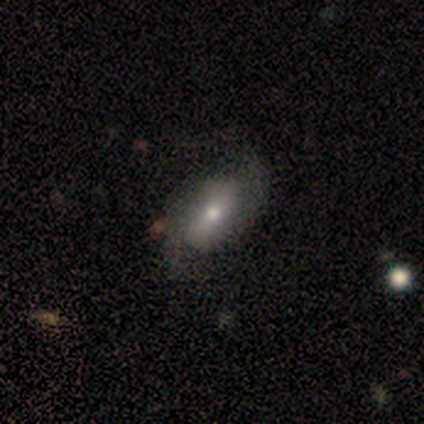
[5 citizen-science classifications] Volunteers were most divided on "smooth or featured": smooth: 60%, featured or disk: 40%, star or artifact: 0%. More confident: how rounded — in between (67%); merging — none (60%).